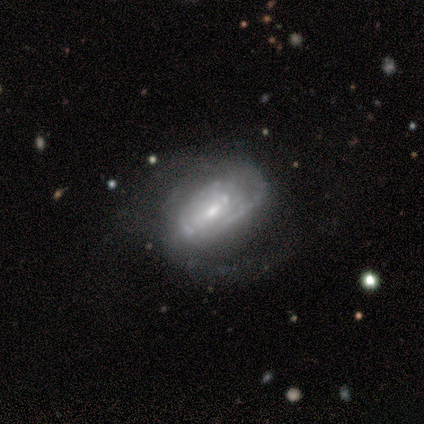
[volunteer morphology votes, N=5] featured or disk 80%, smooth 20%, star or artifact 0%. Down the decision tree: edge-on disk — no (75%); bar — weak (100%); spiral arms — yes (100%); spiral arm count — 2 (67%); spiral winding — medium (67%); bulge size — moderate (67%); merging — none (100%).